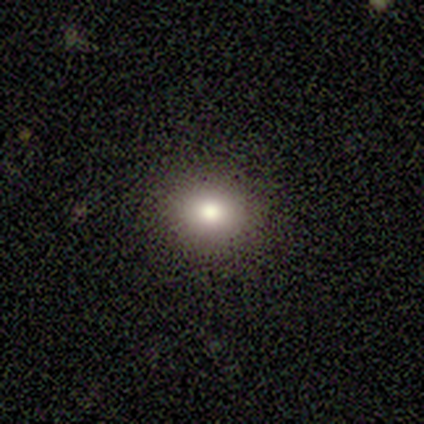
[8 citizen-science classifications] This is clearly a smooth galaxy (88%). How rounded: possibly round (57%). Merging: clearly none (100%).